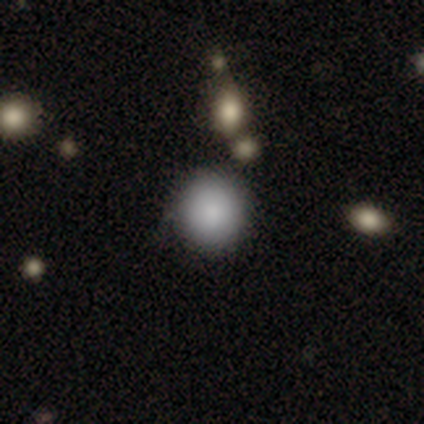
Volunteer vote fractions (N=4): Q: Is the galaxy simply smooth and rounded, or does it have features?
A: smooth — 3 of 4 (75%).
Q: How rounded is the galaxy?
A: round — 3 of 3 (100%).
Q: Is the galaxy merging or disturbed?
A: none — 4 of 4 (100%).